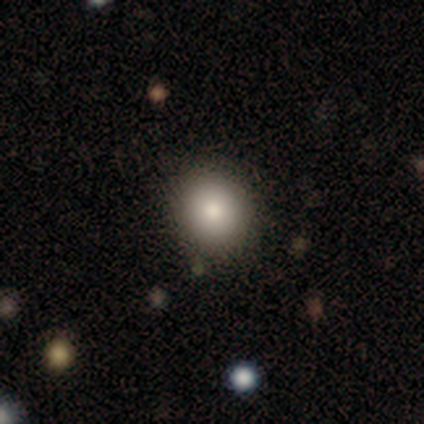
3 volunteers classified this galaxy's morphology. smooth_or_featured: smooth (p=1.00)
how_rounded: round (p=0.67) [alt: in between p=0.33]
merging: none (p=1.00)